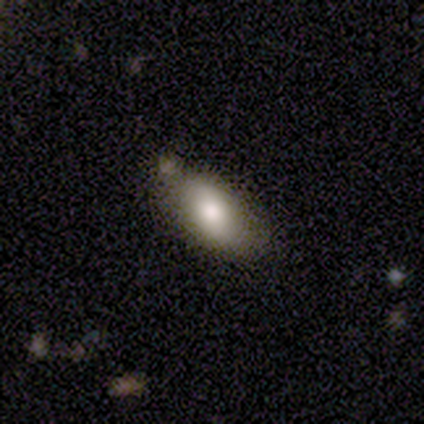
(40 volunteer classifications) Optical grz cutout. It shows a smooth galaxy with no disk features (72%) that is in between round and cigar-shaped (97%). Merging: none (69%).